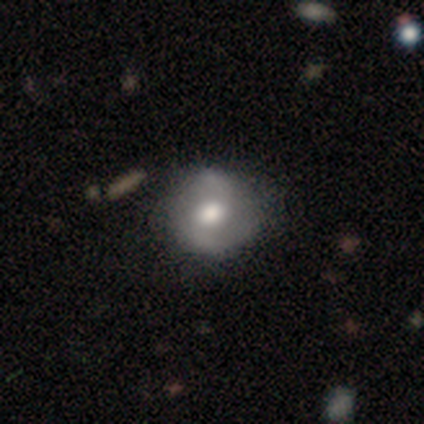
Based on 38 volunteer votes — Volunteers were most divided on "bar": no: 57%, weak: 43%, strong: 0%. More confident: edge-on disk — no (100%); spiral arm count — 2 (96%); spiral arms — yes (93%); smooth or featured — featured or disk (74%); merging — none (51%); bulge size — moderate (50%); spiral winding — loose (50%).